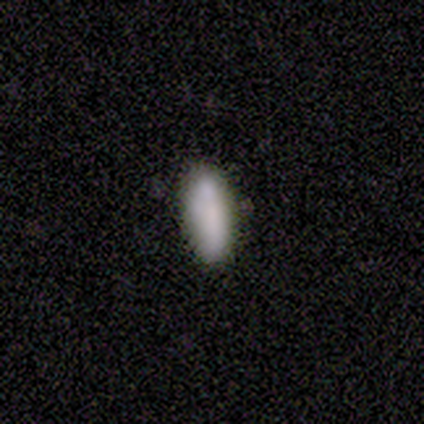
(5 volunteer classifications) Smooth or featured? smooth (100%)
How rounded? in between (80%)
Merging? none (100%)